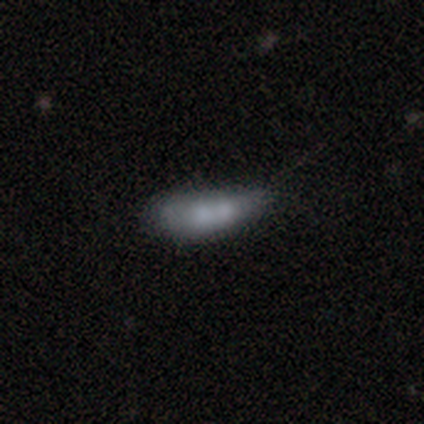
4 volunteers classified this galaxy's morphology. A smooth galaxy with no disk features (50%, tied with featured or disk) that is in between round and cigar-shaped (50%, tied with cigar-shaped). Merging: minor disturbance (50%, tied with merger).